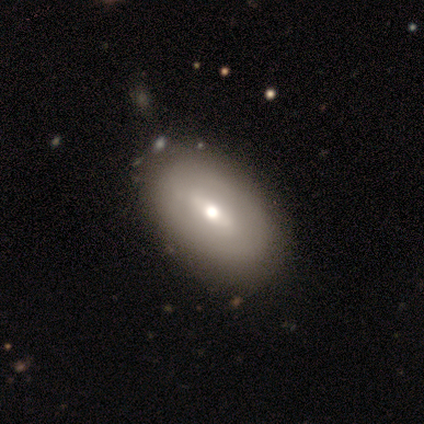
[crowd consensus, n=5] smooth 60%, featured or disk 40%, star or artifact 0%. Down the decision tree: how rounded — in between (67%); merging — none (60%).